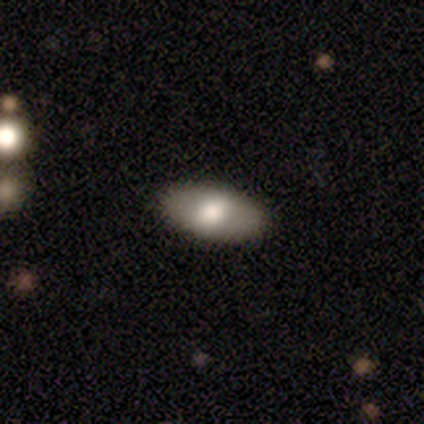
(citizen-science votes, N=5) This is marginally a smooth galaxy (40%, tied with featured or disk). How rounded: clearly in between (100%). Merging: clearly none (100%).